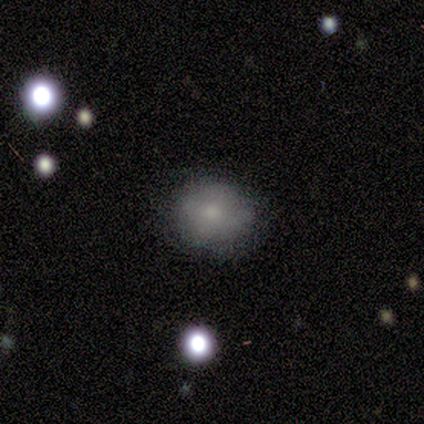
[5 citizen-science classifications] Morphology: type=smooth (80%); roundness=round (75%); merging=none (100%).